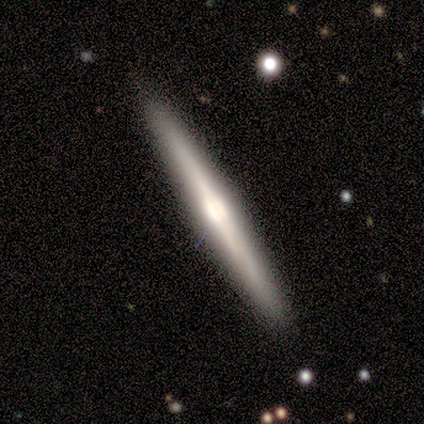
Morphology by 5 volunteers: Overall: smooth (60%; featured or disk 40%). How rounded: cigar-shaped (100%). Merging: none (80%).